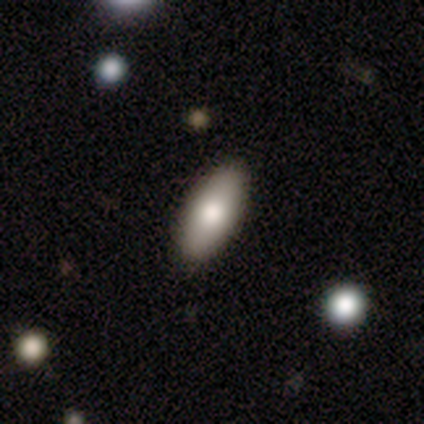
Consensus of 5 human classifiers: This appears to be a smooth galaxy with no disk features (100%) that is in between round and cigar-shaped (100%). Merging: none (60%).